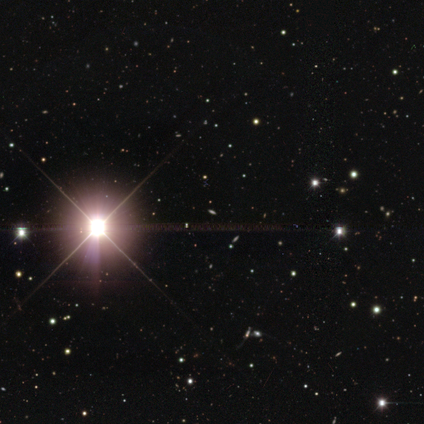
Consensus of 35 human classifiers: Smooth or featured: star or artifact — 97% (smooth — 3%)